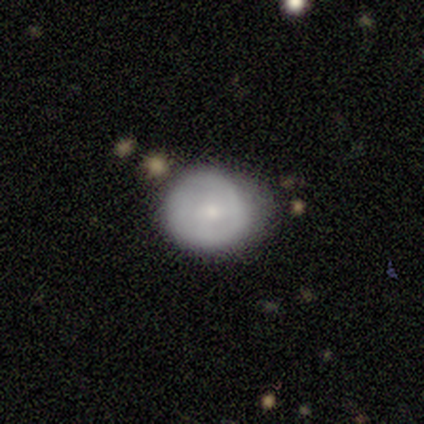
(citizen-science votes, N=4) smooth 50% (tied), featured or disk 50% (tied), star or artifact 0%. Down the decision tree: how rounded — round (100%); merging — minor disturbance (50%).